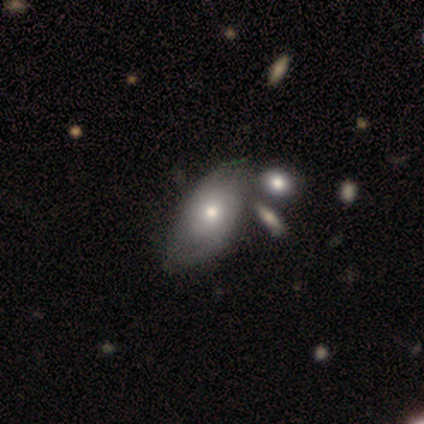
smooth 52%, featured or disk 42%, star or artifact 5%. Down the decision tree: how rounded — in between (90%); merging — none (26%).